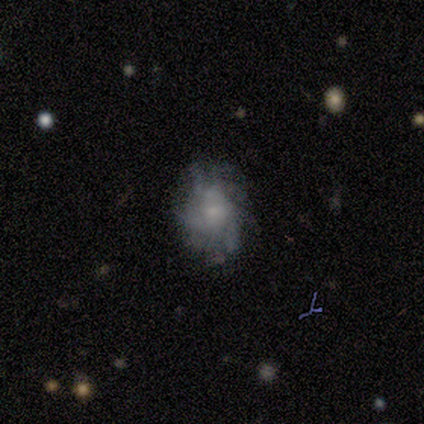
smooth-or-featured: featured or disk: 80% | smooth: 20% | star or artifact: 0%
  disk-edge-on: no: 100% | yes: 0%
    bar: weak: 50% (tied) | no: 50% (tied) | strong: 0%
    has-spiral-arms: yes: 75% | no: 25%
      spiral-winding: tight: 33% (tied) | medium: 33% (tied) | loose: 33% (tied)
      spiral-arm-count: can't tell: 67% | 3: 33% | 1: 0% | 2: 0% | 4: 0% | more than 4: 0%
    bulge-size: small: 75% | moderate: 25% | dominant: 0% | large: 0% | none: 0%
  merging: none: 100% | minor disturbance: 0% | major disturbance: 0% | merger: 0%